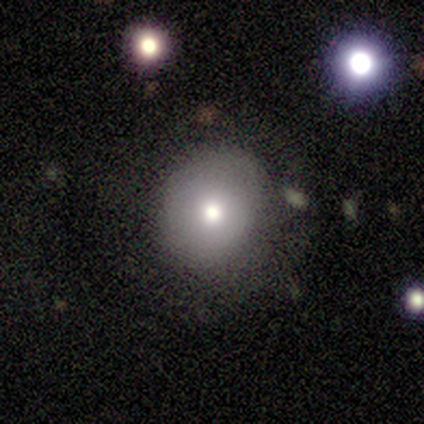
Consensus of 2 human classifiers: Morphology: type=smooth (100%); roundness=round (100%); merging=major disturbance (100%).